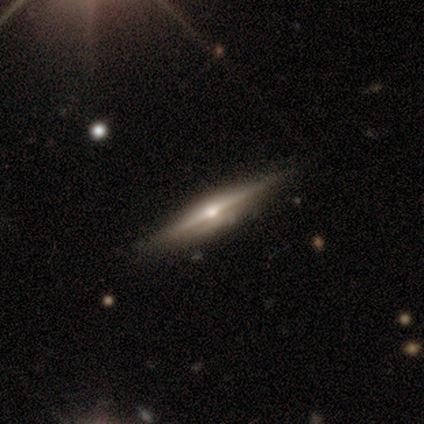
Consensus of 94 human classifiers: Morphology: type=featured or disk (84%); edge-on=yes (97%); edge-on bulge=rounded (86%); merging=none (84%).